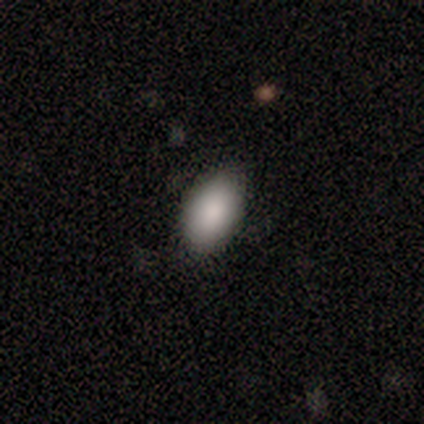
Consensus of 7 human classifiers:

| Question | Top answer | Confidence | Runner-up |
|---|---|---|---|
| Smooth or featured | smooth | 86% | star or artifact (14%) |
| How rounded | in between | 100% | — |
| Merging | none | 83% | minor disturbance (17%) |